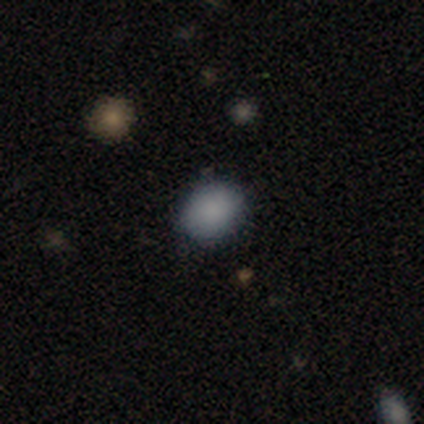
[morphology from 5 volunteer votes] Overall: smooth (80%). How rounded: round (75%). Merging: none (75%).